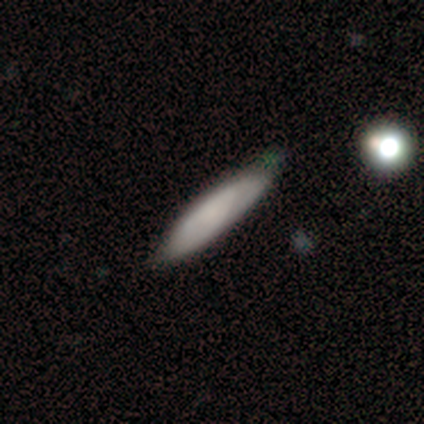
Smooth or featured?
  - smooth: 80% *
  - star or artifact: 20%
  - featured or disk: 0%
How rounded?
  - cigar-shaped: 100% *
  - round: 0%
  - in between: 0%
Merging?
  - none: 50% *
  - minor disturbance: 25%
  - major disturbance: 25%
  - merger: 0%